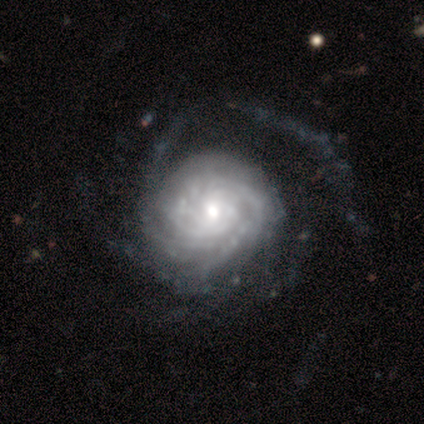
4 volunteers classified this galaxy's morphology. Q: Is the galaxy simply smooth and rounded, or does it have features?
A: featured or disk — 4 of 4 (100%).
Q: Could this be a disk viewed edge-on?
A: no — 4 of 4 (100%).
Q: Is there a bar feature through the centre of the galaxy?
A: no — 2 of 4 (50%).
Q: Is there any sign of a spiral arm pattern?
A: yes — 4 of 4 (100%).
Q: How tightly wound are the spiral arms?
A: tight — 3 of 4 (75%).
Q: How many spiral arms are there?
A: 4 — 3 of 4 (75%).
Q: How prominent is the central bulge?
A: moderate — 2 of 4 (50%, tied with small).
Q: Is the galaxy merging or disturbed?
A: minor disturbance — 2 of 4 (50%).